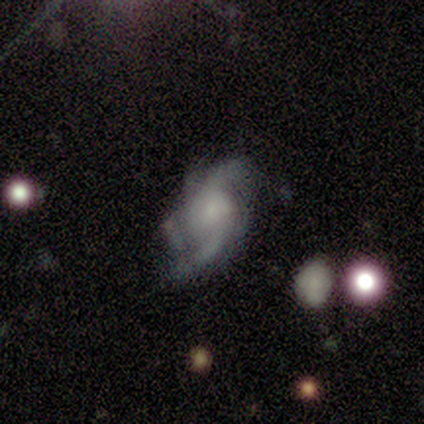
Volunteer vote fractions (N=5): smooth-or-featured: featured or disk: 60% | smooth: 20% | star or artifact: 20%
  disk-edge-on: no: 100% | yes: 0%
    bar: no: 100% | strong: 0% | weak: 0%
    has-spiral-arms: yes: 100% | no: 0%
      spiral-winding: loose: 67% | medium: 33% | tight: 0%
      spiral-arm-count: 2: 67% | 4: 33% | 1: 0% | 3: 0% | more than 4: 0% | can't tell: 0%
    bulge-size: moderate: 33% (tied) | small: 33% (tied) | none: 33% (tied) | dominant: 0% | large: 0%
  merging: none: 100% | minor disturbance: 0% | major disturbance: 0% | merger: 0%